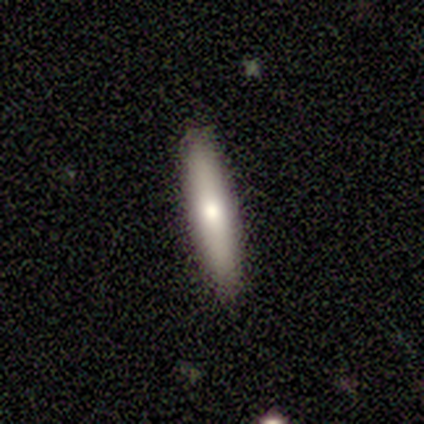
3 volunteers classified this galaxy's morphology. Q: Smooth or featured?
A: smooth (67%); runner-up: featured or disk (33%)
Q: How rounded?
A: cigar-shaped (100%)
Q: Merging?
A: none (100%)